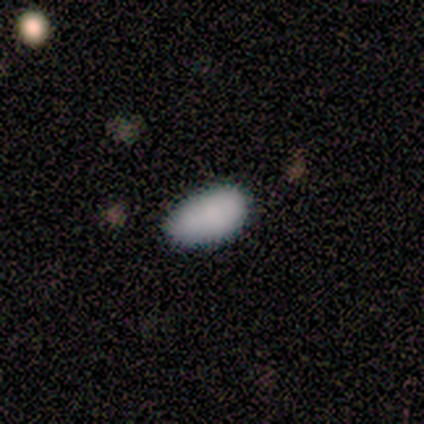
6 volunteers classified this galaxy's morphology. Smooth or featured? 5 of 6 (83%) said smooth. How rounded? 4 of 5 (80%) said in between. Merging? 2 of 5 (40%, tied with minor disturbance) said none.